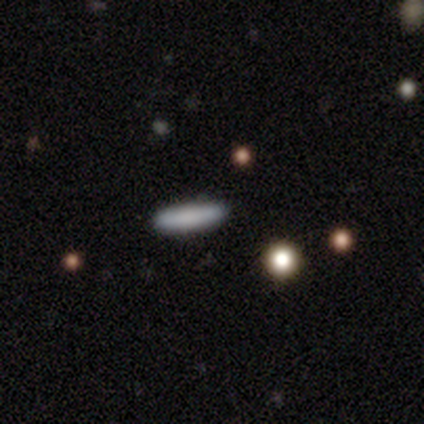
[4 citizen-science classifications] Smooth or featured? smooth (75%)
How rounded? cigar-shaped (100%)
Merging? none (75%)